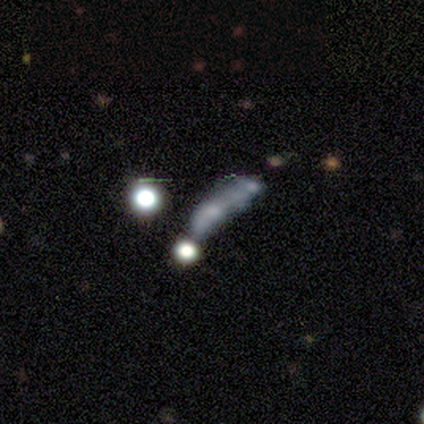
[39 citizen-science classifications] A star or artifact, not a galaxy (38%).

Vote fractions:
- Smooth or featured? star or artifact: 38% / smooth: 33% / featured or disk: 28%